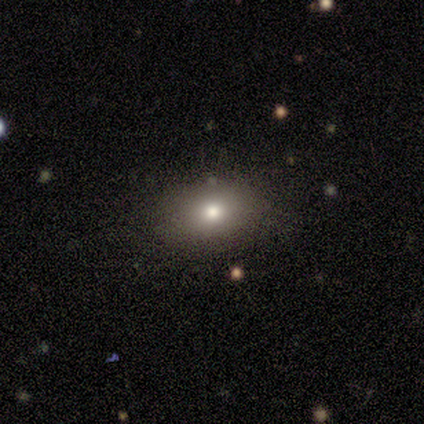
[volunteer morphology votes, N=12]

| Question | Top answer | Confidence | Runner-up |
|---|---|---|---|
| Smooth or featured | smooth | 92% | star or artifact (8%) |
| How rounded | in between | 82% | round (18%) |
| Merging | none | 73% | minor disturbance (27%) |